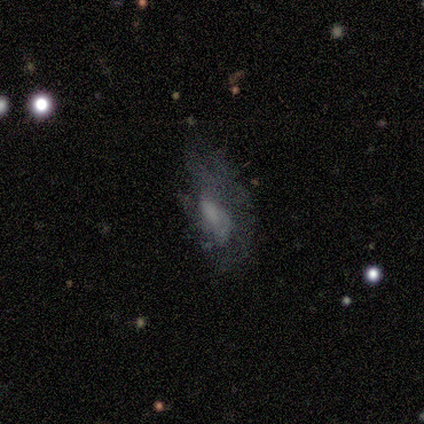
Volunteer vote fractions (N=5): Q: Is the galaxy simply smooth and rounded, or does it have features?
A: smooth — 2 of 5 (40%, tied with featured or disk).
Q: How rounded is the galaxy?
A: in between — 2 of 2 (100%).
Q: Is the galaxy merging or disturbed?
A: major disturbance — 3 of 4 (75%).